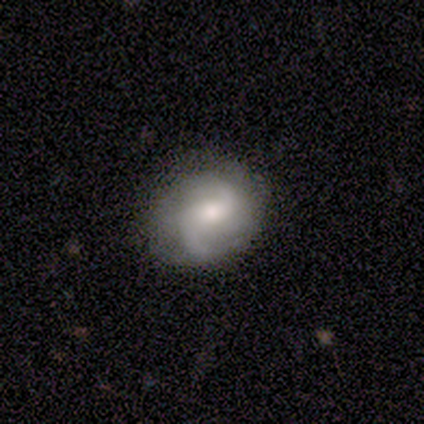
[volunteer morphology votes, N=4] Smooth or featured: featured or disk — 75% (smooth — 25%)
Edge-on disk: no — 100%
Bar: weak — 67% (no — 33%)
Spiral arms: yes — 67% (no — 33%)
Spiral winding: medium — 100%
Spiral arm count: 2 — 50% (tied with can't tell — 50%)
Bulge size: large — 33% (tied with small — 33%; none — 33%)
Merging: none — 100%